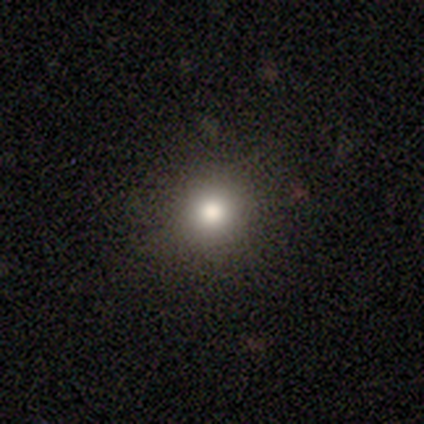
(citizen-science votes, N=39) Smooth or featured? smooth (77%)
How rounded? round (97%)
Merging? none (91%)